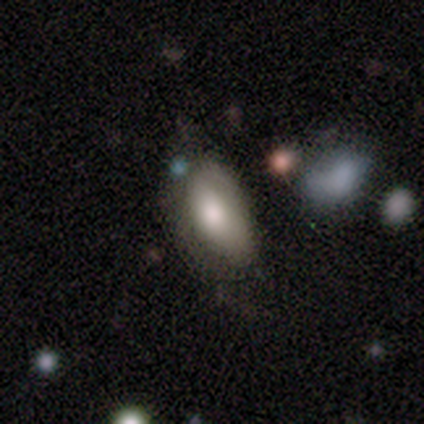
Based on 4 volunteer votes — smooth_or_featured: smooth (p=0.50) [alt: featured or disk p=0.25]
how_rounded: in between (p=1.00)
merging: minor disturbance (p=0.67) [alt: major disturbance p=0.33]